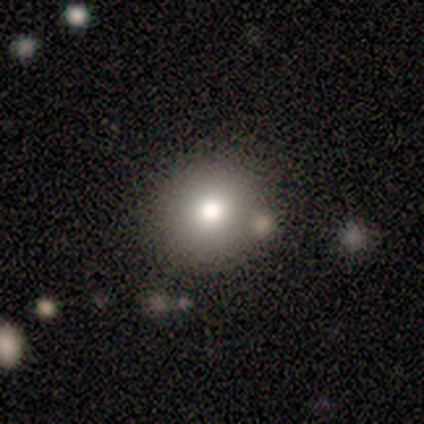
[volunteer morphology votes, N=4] smooth-or-featured: smooth: 50% | featured or disk: 25% | star or artifact: 25%
  how-rounded: round: 100% | in between: 0% | cigar-shaped: 0%
  merging: none: 67% | merger: 33% | minor disturbance: 0% | major disturbance: 0%